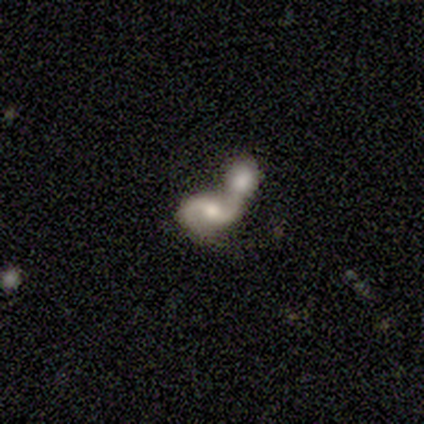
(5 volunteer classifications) Volunteers were most divided on "bar": no: 60%, strong: 20%, weak: 20%. More confident: smooth or featured — featured or disk (100%); edge-on disk — no (100%); spiral arms — yes (100%); spiral winding — loose (80%); spiral arm count — 2 (80%); merging — merger (80%); bulge size — small (60%).